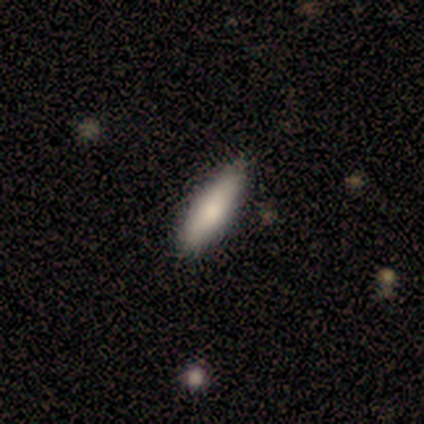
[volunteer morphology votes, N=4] Volunteers were most divided on "how rounded": in between: 75%, cigar-shaped: 25%, round: 0%. More confident: smooth or featured — smooth (100%); merging — none (100%).